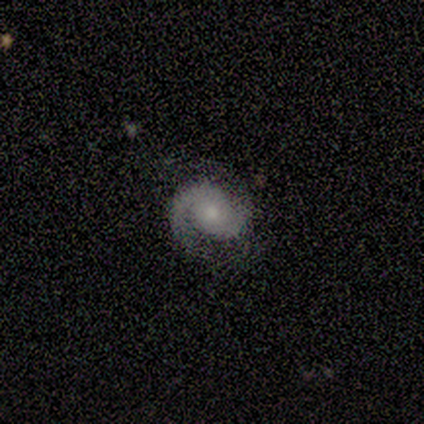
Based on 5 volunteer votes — Smooth or featured? 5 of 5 (100%) said featured or disk. Edge-on disk? 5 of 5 (100%) said no. Bar? 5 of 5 (100%) said no. Spiral arms? 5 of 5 (100%) said yes. Spiral winding? 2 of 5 (40%, tied with medium) said tight. Spiral arm count? 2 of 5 (40%, tied with 2) said 1. Bulge size? 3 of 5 (60%) said moderate. Merging? 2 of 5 (40%, tied with minor disturbance) said none.